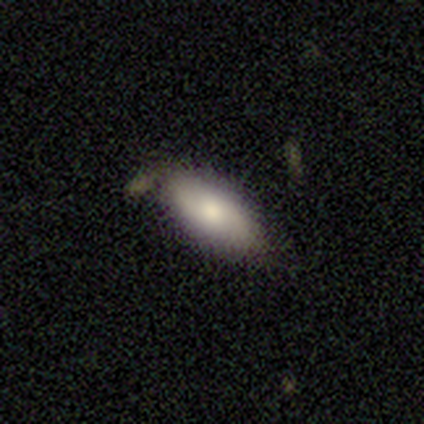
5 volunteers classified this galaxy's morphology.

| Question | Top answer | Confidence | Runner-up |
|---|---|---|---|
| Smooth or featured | smooth | 100% | — |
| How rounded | in between | 80% | cigar-shaped (20%) |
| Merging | none | 80% | minor disturbance (20%) |